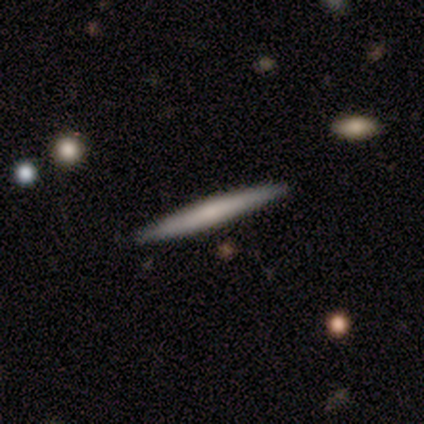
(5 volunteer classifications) Smooth or featured? featured or disk (80%)
Edge-on disk? yes (100%)
Edge-on bulge? none (100%)
Merging? none (100%)